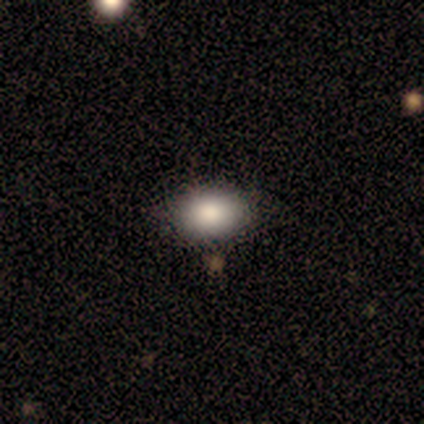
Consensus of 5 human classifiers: Smooth or featured? 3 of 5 (60%) said smooth. How rounded? 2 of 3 (67%) said in between. Merging? 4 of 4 (100%) said none.